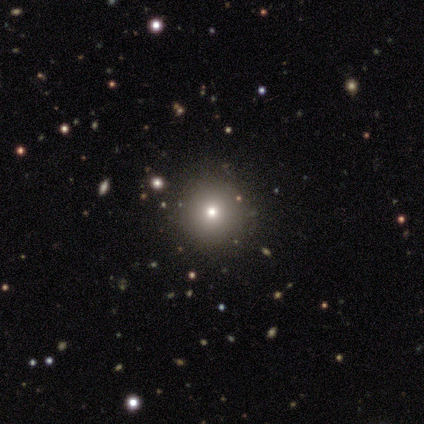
Volunteers were most divided on "smooth or featured": smooth: 80%, featured or disk: 20%, star or artifact: 0%. More confident: how rounded — round (100%); merging — none (80%).